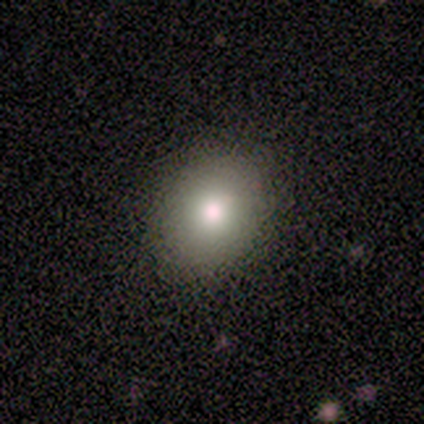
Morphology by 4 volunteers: This is clearly a smooth galaxy (100%). How rounded: likely in between (75%). Merging: clearly none (100%).